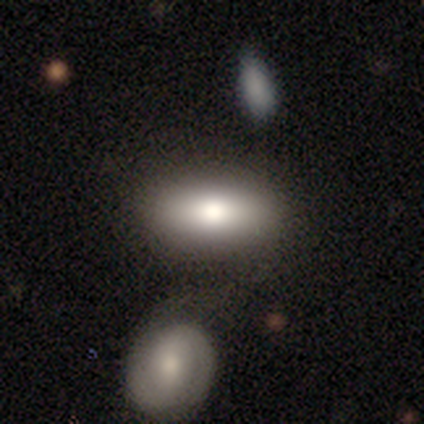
A smooth galaxy with no disk features (100%) that is in between round and cigar-shaped (50%).

Vote fractions:
- Smooth or featured? smooth: 100% / featured or disk: 0% / star or artifact: 0%
- How rounded? in between: 50% / round: 33% / cigar-shaped: 17%
- Merging? none: 83% / merger: 17% / minor disturbance: 0% / major disturbance: 0%